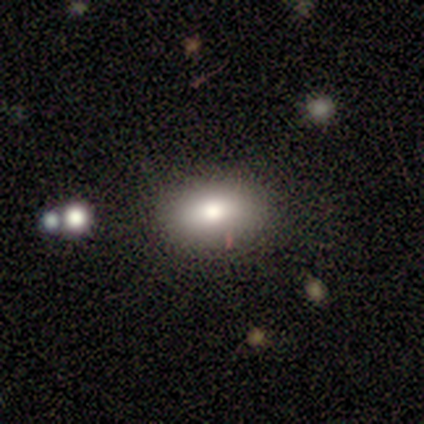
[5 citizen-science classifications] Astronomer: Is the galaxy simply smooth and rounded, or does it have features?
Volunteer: smooth — 60%.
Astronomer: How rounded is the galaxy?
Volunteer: in between — 100%.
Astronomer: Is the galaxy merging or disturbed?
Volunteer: none — 50%, tied with minor disturbance at 50%.